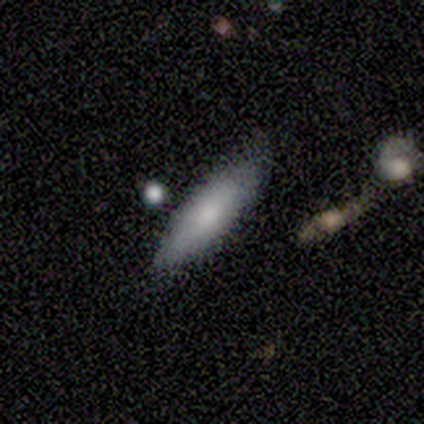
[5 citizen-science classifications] Morphology: type=smooth (80%); roundness=in between (50%, tied with cigar-shaped); merging=none (50%, tied with minor disturbance).